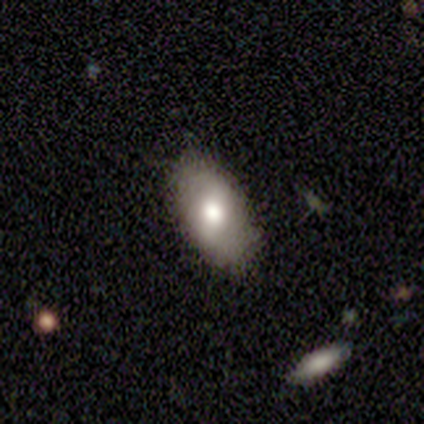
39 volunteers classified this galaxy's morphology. This is likely a smooth galaxy (77%). How rounded: clearly in between (87%). Merging: clearly none (86%).